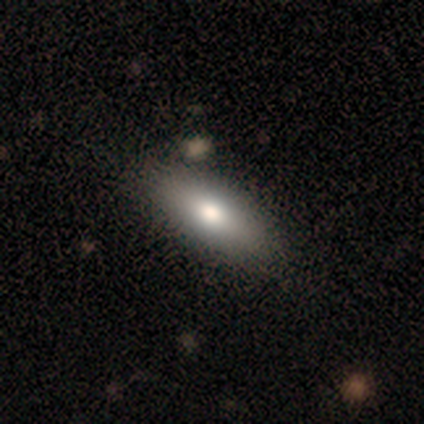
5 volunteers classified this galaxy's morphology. Smooth or featured? smooth (100%)
How rounded? in between (60%)
Merging? none (60%)